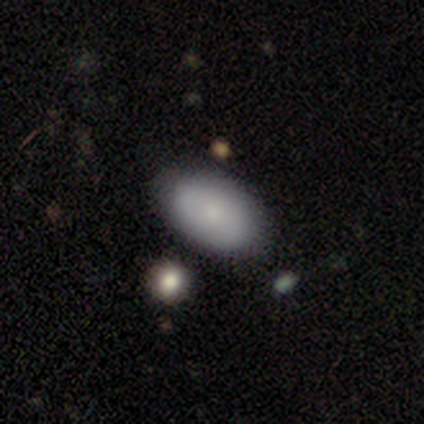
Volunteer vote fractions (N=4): Q: Smooth or featured?
A: smooth (75%); runner-up: featured or disk (25%)
Q: How rounded?
A: in between (100%)
Q: Merging?
A: none (100%)